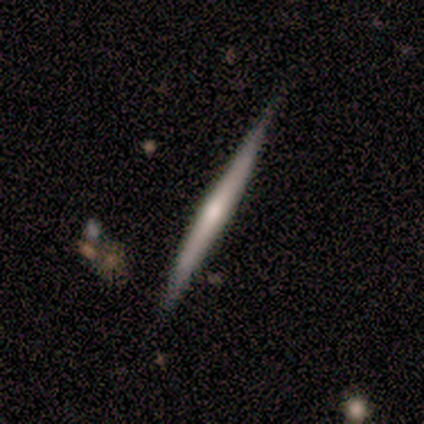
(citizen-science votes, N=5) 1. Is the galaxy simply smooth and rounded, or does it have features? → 60% featured or disk, 40% smooth, 0% star or artifact.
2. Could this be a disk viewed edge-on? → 100% yes, 0% no.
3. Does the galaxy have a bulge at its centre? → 67% rounded, 33% none, 0% boxy.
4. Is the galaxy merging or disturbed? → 60% none, 40% minor disturbance, 0% major disturbance, 0% merger.